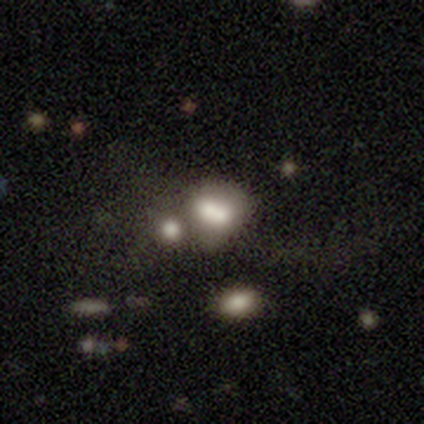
Smooth or featured? 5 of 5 (100%) said smooth. How rounded? 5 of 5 (100%) said round. Merging? 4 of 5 (80%) said merger.